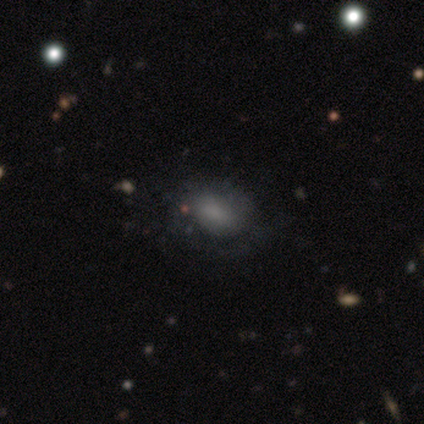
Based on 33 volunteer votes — Smooth or featured? smooth (73%)
How rounded? in between (88%)
Merging? none (67%)